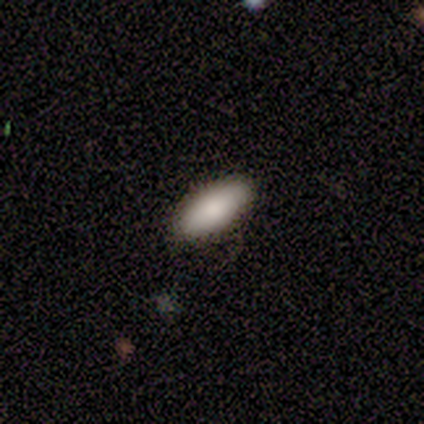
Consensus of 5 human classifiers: Q: Smooth or featured?
A: smooth (60%); runner-up: star or artifact (40%)
Q: How rounded?
A: in between (67%); runner-up: cigar-shaped (33%)
Q: Merging?
A: none (100%)